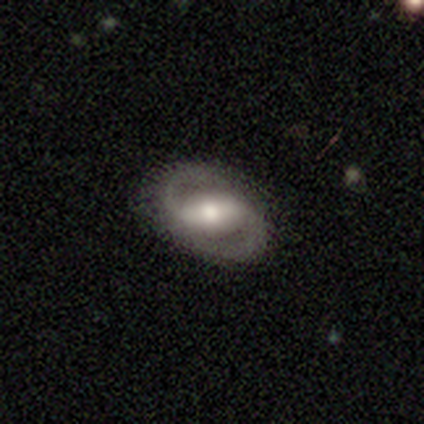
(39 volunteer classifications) Smooth or featured? featured or disk (87%)
Edge-on disk? no (91%)
Bar? strong (58%)
Spiral arms? yes (100%)
Spiral winding? medium (58%)
Spiral arm count? 2 (100%)
Bulge size? moderate (45%)
Merging? none (84%)